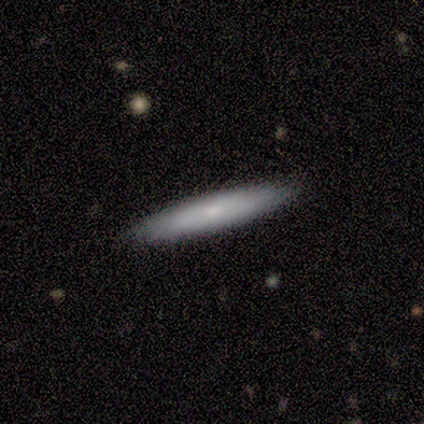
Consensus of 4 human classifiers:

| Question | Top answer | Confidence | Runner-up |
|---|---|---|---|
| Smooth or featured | smooth | 100% | — |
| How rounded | cigar-shaped | 100% | — |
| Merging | none | 100% | — |